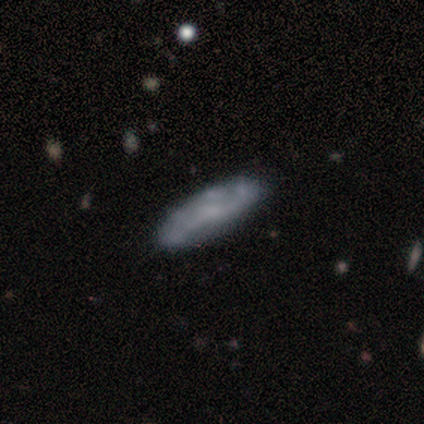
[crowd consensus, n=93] A smooth galaxy with no disk features (47%) that is cigar-shaped (57%). Merging: none (76%).